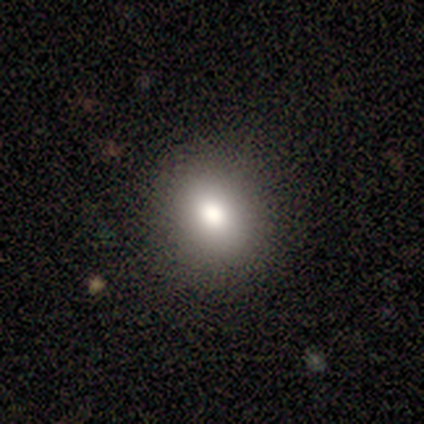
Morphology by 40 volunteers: Smooth or featured? smooth (65%)
How rounded? round (58%)
Merging? none (97%)